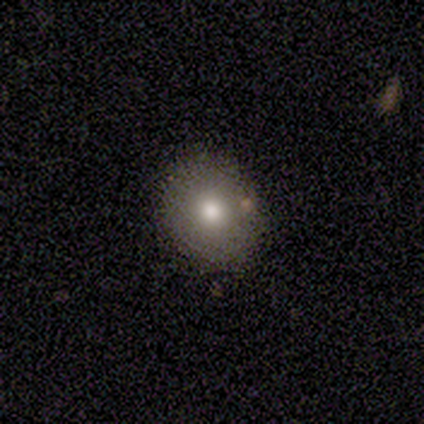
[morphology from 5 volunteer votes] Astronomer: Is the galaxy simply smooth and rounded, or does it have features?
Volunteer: smooth — 60% (runner-up: star or artifact, 40%).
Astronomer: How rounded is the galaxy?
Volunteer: round — 67%.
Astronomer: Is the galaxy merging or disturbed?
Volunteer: none — 100%.